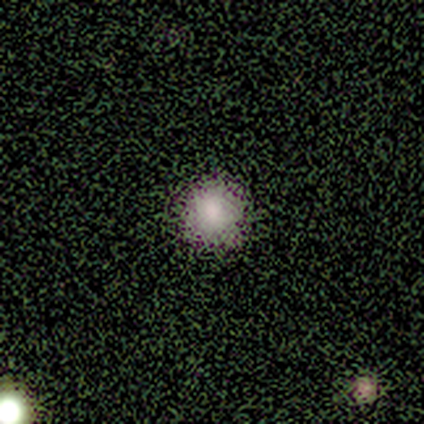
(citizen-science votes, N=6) Overall: smooth (67%). How rounded: round (100%). Merging: none (100%).